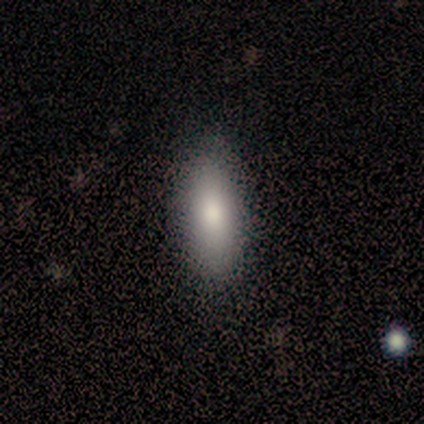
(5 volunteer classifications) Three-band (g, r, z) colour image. It shows a smooth galaxy with no disk features (80%) that is in between round and cigar-shaped (75%). Merging: none (100%).